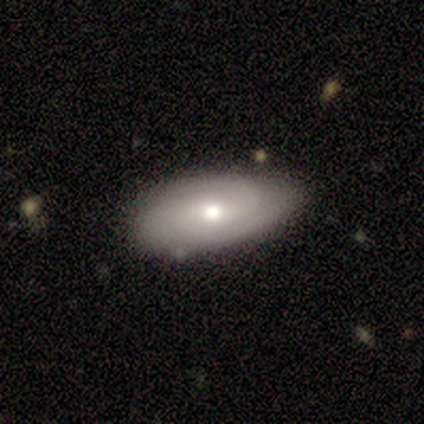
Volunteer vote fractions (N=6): Smooth or featured? featured or disk (83%)
Edge-on disk? no (80%)
Bar? weak (75%)
Spiral arms? yes (100%)
Spiral winding? tight (50%, tied with medium)
Spiral arm count? 2 (75%)
Bulge size? moderate (75%)
Merging? none (83%)